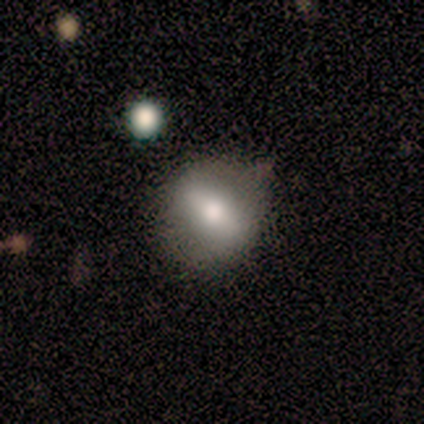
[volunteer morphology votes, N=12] smooth_or_featured: smooth (p=0.67) [alt: featured or disk p=0.33]
how_rounded: round (p=0.75) [alt: in between p=0.25]
merging: none (p=0.58) [alt: minor disturbance p=0.25]